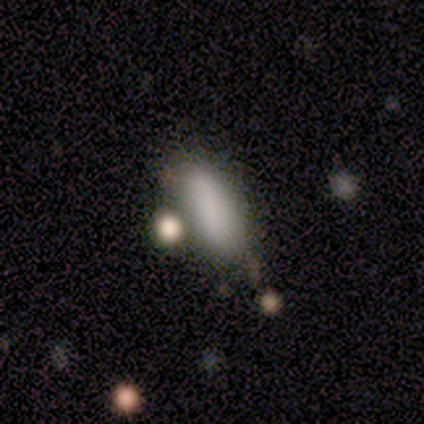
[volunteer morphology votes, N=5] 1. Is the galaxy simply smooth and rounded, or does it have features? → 100% smooth, 0% featured or disk, 0% star or artifact.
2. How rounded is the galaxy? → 60% in between, 20% round, 20% cigar-shaped.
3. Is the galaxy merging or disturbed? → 60% none, 20% minor disturbance, 20% merger, 0% major disturbance.